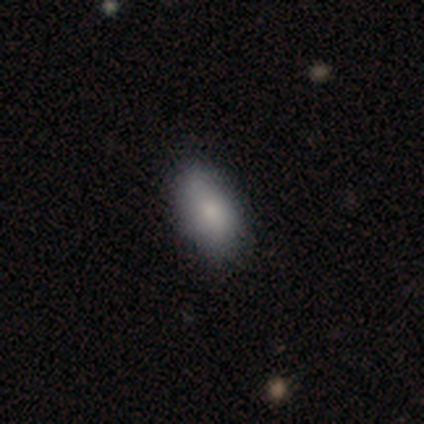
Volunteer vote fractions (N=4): Consensus on every question: smooth or featured — smooth (100%); how rounded — in between (100%); merging — none (100%).